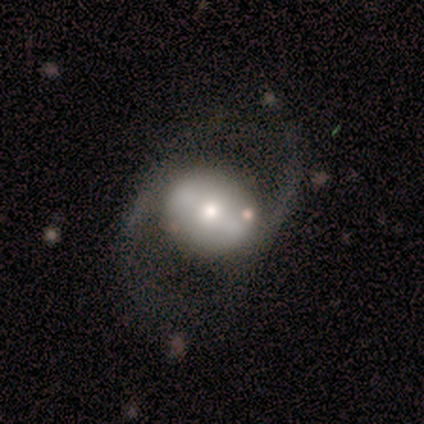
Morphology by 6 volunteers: Q: Smooth or featured?
A: featured or disk (83%); runner-up: smooth (17%)
Q: Edge-on disk?
A: no (80%); runner-up: yes (20%)
Q: Bar?
A: strong (75%); runner-up: weak (25%)
Q: Spiral arms?
A: yes (75%); runner-up: no (25%)
Q: Spiral winding?
A: medium (67%); runner-up: loose (33%)
Q: Spiral arm count?
A: 2 (67%); runner-up: 1 (33%)
Q: Bulge size?
A: moderate (75%); runner-up: dominant (25%)
Q: Merging?
A: none (50%); runner-up: major disturbance (33%)